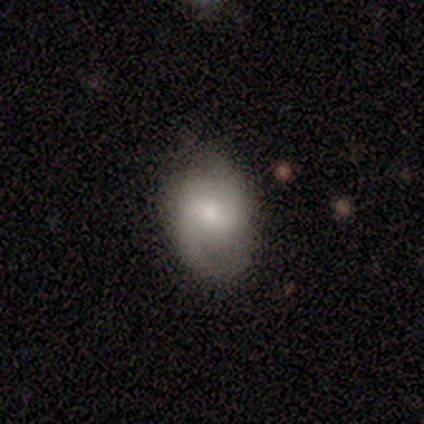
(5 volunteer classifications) smooth_or_featured: featured or disk (p=0.80) [alt: smooth p=0.20]
disk_edge_on: no (p=1.00)
bar: weak (p=0.75) [alt: strong p=0.25]
has_spiral_arms: yes (p=0.75) [alt: no p=0.25]
spiral_winding: tight (p=0.67) [alt: medium p=0.33]
spiral_arm_count: 2 (p=1.00)
bulge_size: moderate (p=1.00)
merging: minor disturbance (p=0.60) [alt: none p=0.40]